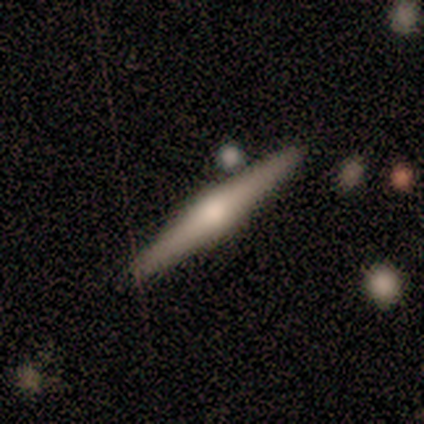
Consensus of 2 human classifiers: Smooth or featured? featured or disk (100%)
Edge-on disk? yes (100%)
Edge-on bulge? rounded (100%)
Merging? none (100%)